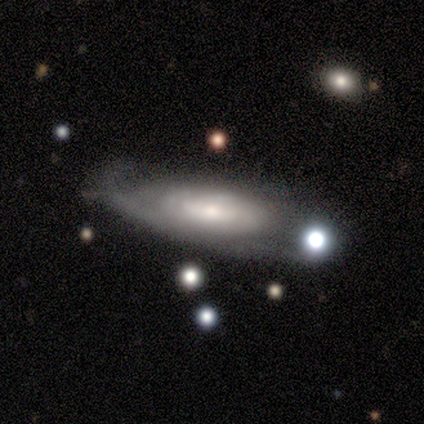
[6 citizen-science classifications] Smooth or featured: featured or disk — 83% (star or artifact — 17%)
Edge-on disk: no — 80% (yes — 20%)
Bar: no — 50% (strong — 25%)
Spiral arms: yes — 100%
Spiral winding: medium — 50% (tight — 25%)
Spiral arm count: 1 — 50% (2 — 25%)
Bulge size: small — 75% (moderate — 25%)
Merging: none — 40% (tied with major disturbance — 40%)